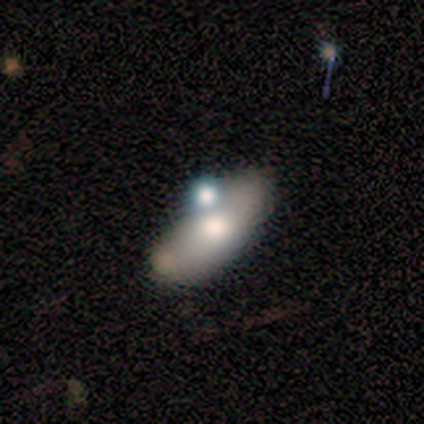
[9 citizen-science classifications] smooth-or-featured: smooth: 56% | featured or disk: 44% | star or artifact: 0%
  how-rounded: in between: 100% | round: 0% | cigar-shaped: 0%
  merging: none: 44% | merger: 33% | minor disturbance: 11% | major disturbance: 11%